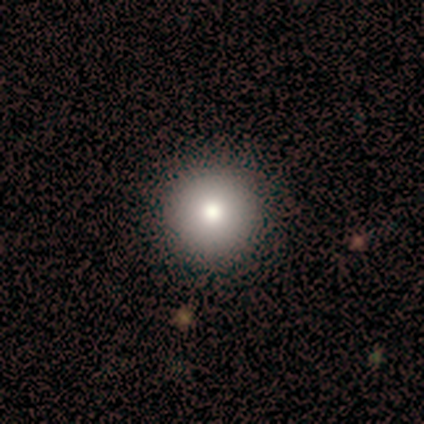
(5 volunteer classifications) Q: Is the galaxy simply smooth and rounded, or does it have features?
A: smooth — 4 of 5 (80%).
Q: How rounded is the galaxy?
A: round — 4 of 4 (100%).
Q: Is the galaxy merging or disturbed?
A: none — 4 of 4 (100%).